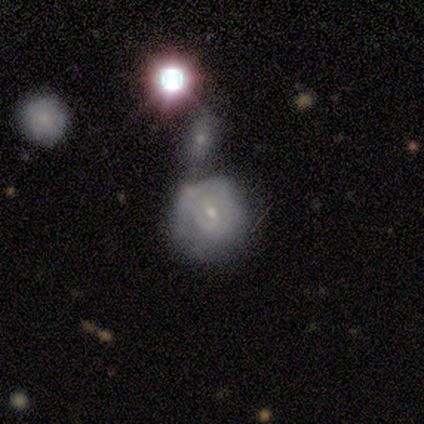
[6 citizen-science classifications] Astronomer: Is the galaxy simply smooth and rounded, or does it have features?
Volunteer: featured or disk — 67%.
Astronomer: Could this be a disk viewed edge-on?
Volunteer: no — 100%.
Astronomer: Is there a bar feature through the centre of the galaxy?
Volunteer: no — 50%.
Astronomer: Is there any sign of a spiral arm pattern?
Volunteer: yes — 100%.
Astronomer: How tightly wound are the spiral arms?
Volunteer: tight — 75%.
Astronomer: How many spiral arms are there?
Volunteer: can't tell — 75%.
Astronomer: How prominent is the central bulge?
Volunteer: small — 100%.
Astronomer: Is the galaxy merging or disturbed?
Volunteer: minor disturbance — 50% (runner-up: merger, 33%).